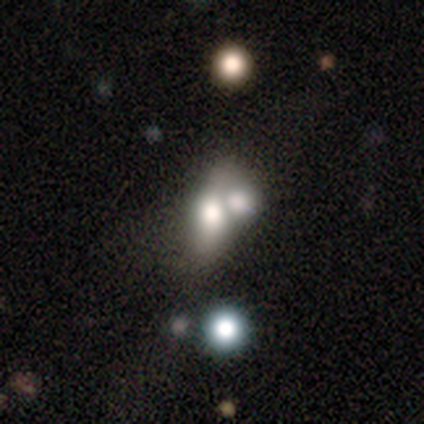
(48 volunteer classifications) smooth 52%, featured or disk 38%, star or artifact 10%. Down the decision tree: how rounded — in between (56%); merging — merger (74%).